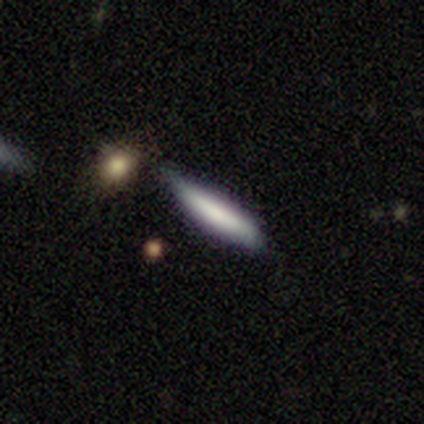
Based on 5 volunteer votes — Smooth or featured: smooth — 80% (featured or disk — 20%)
How rounded: cigar-shaped — 100%
Merging: none — 40% (tied with minor disturbance — 40%)